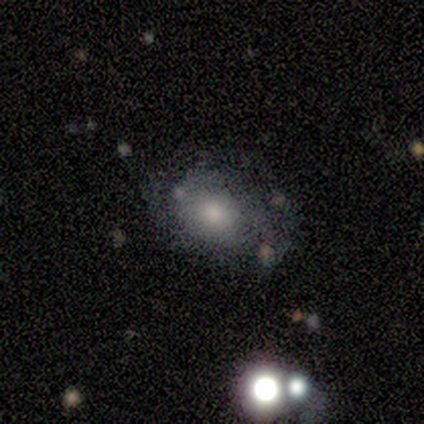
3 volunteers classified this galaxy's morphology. smooth_or_featured: featured or disk (p=0.67) [alt: smooth p=0.33]
disk_edge_on: yes (p=0.50) [tied with: no p=0.50]
edge_on_bulge: boxy (p=1.00)
merging: none (p=1.00)